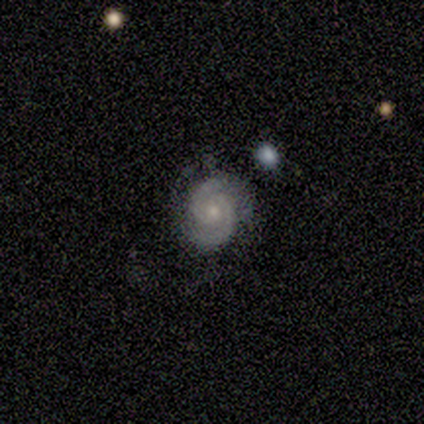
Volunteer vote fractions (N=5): Smooth or featured? 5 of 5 (100%) said featured or disk. Edge-on disk? 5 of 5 (100%) said no. Bar? 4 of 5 (80%) said no. Spiral arms? 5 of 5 (100%) said yes. Spiral winding? 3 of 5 (60%) said medium. Spiral arm count? 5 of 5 (100%) said 2. Bulge size? 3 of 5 (60%) said small. Merging? 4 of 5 (80%) said none.